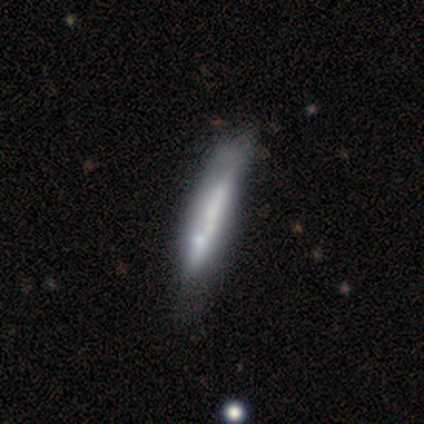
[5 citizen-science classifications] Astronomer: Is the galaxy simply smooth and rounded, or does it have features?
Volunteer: featured or disk — 60% (runner-up: smooth, 40%).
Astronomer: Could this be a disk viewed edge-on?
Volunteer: no — 100%.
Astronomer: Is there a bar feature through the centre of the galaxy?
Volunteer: strong — 67%.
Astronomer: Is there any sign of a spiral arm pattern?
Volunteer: no — 67%.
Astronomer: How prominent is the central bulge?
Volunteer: moderate — 67%.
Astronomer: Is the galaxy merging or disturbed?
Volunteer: minor disturbance — 40%, tied with major disturbance at 40%.